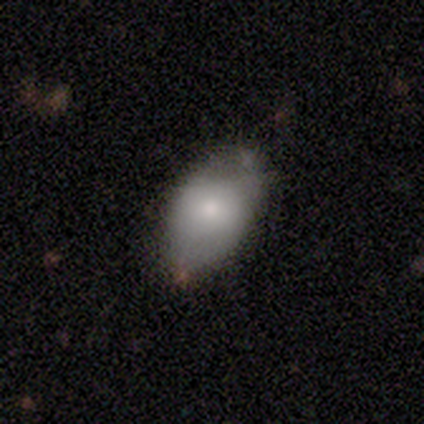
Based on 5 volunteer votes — Q: Smooth or featured?
A: smooth (40%); tied with: featured or disk (40%)
Q: How rounded?
A: in between (100%)
Q: Merging?
A: minor disturbance (75%); runner-up: none (25%)